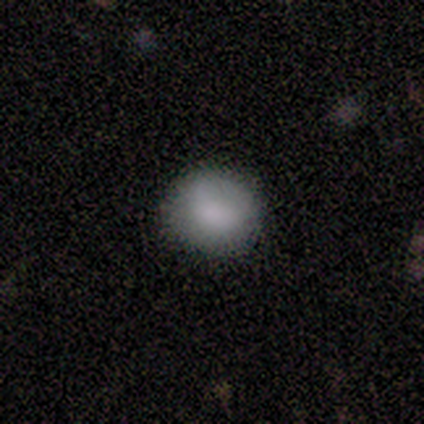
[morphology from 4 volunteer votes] Smooth or featured: smooth — 75% (featured or disk — 25%)
How rounded: round — 67% (in between — 33%)
Merging: none — 100%